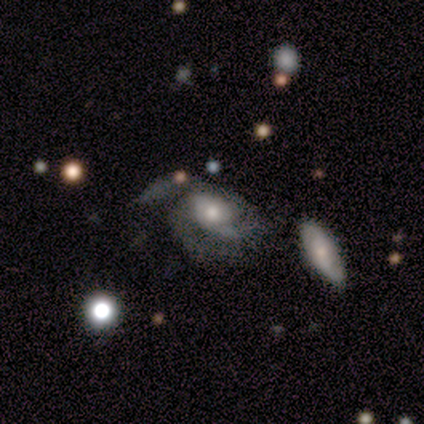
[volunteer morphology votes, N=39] type=featured or disk (72%); edge-on=no (96%); bar=no (63%); spiral arms=yes (85%); winding=medium (57%); arm count=3 (43%); bulge=moderate (56%); merging=none (41%).